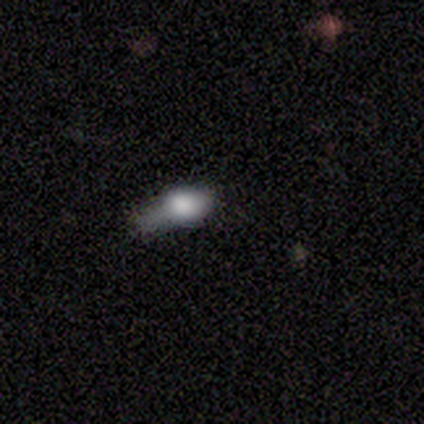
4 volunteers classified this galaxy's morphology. This appears to be a smooth galaxy with no disk features (75%) that is in between round and cigar-shaped (67%). Merging: merger (50%).